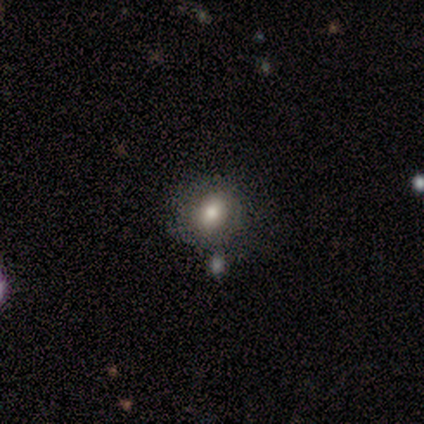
smooth 60%, featured or disk 40%, star or artifact 0%. Down the decision tree: how rounded — round (100%); merging — none (60%).